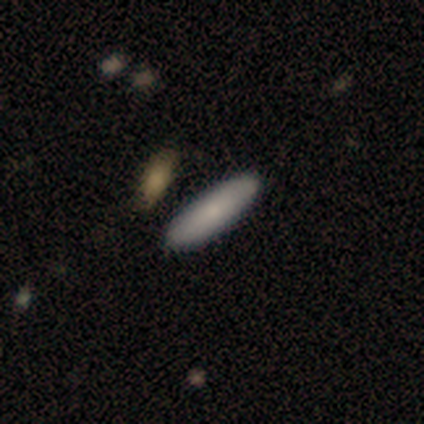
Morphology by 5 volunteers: smooth_or_featured: smooth (p=0.80) [alt: featured or disk p=0.20]
how_rounded: in between (p=1.00)
merging: none (p=0.60) [alt: minor disturbance p=0.20]